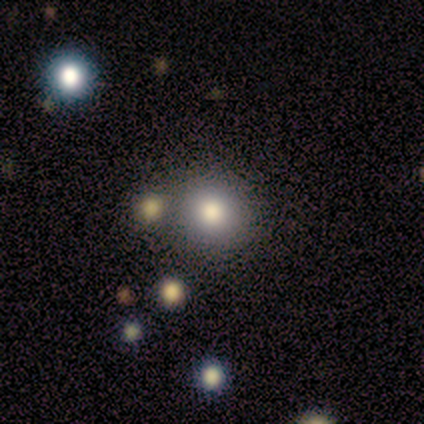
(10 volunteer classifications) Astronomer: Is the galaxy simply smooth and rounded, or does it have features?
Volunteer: smooth — 90%.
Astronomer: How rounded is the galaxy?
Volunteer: round — 100%.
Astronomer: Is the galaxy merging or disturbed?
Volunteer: none — 80%.